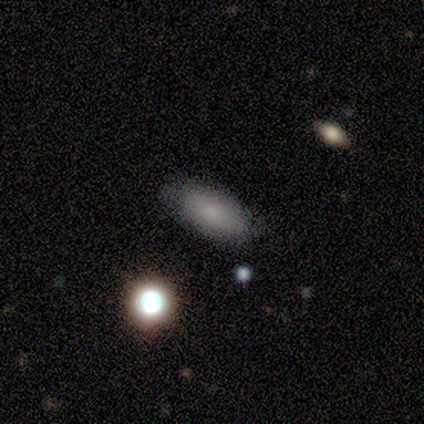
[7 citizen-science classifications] Smooth or featured? smooth (100%)
How rounded? in between (86%)
Merging? none (71%)